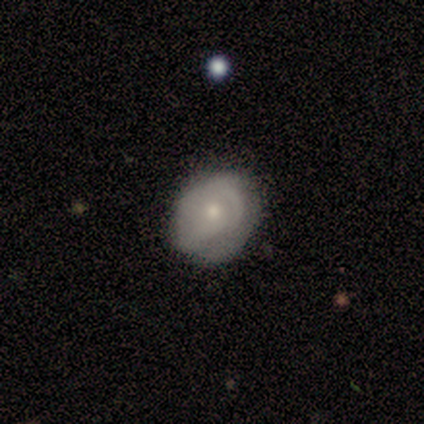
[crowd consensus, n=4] Smooth or featured?
  - featured or disk: 50% *
  - smooth: 25%
  - star or artifact: 25%
Edge-on disk?
  - no: 100% *
  - yes: 0%
Bar?
  - no: 100% *
  - strong: 0%
  - weak: 0%
Spiral arms?
  - no: 100% *
  - yes: 0%
Bulge size?
  - small: 100% *
  - dominant: 0%
  - large: 0%
  - moderate: 0%
  - none: 0%
Merging?
  - none: 67% *
  - merger: 33%
  - minor disturbance: 0%
  - major disturbance: 0%